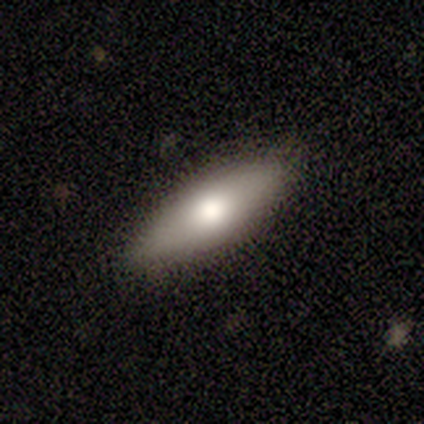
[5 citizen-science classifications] smooth-or-featured: featured or disk: 60% | smooth: 40% | star or artifact: 0%
  disk-edge-on: yes: 67% | no: 33%
    edge-on-bulge: rounded: 100% | boxy: 0% | none: 0%
  merging: none: 100% | minor disturbance: 0% | major disturbance: 0% | merger: 0%